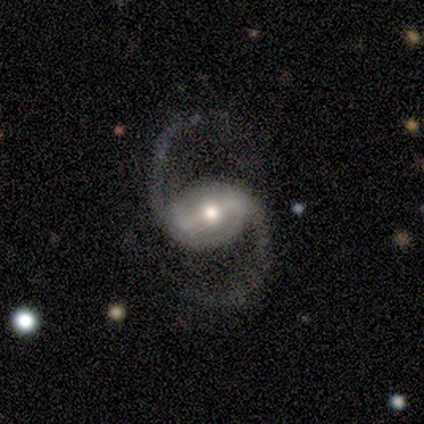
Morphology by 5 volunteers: smooth_or_featured: featured or disk (p=1.00)
disk_edge_on: no (p=1.00)
bar: strong (p=0.40) [tied with: weak p=0.40]
has_spiral_arms: yes (p=0.80) [alt: no p=0.20]
spiral_winding: medium (p=0.50) [tied with: loose p=0.50]
spiral_arm_count: 2 (p=1.00)
bulge_size: moderate (p=0.60) [alt: large p=0.20]
merging: none (p=0.60) [alt: minor disturbance p=0.20]